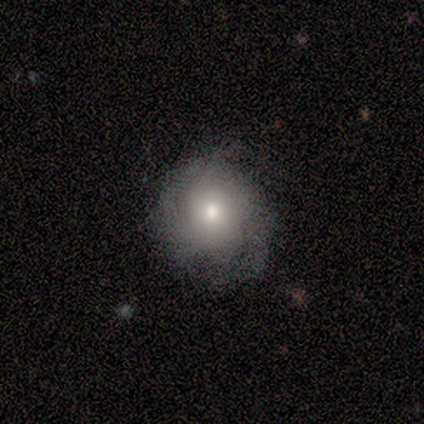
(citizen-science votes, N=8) Volunteers were most divided on "bar": no: 60%, weak: 40%, strong: 0%. More confident: edge-on disk — no (100%); spiral winding — tight (67%); spiral arm count — can't tell (67%); smooth or featured — featured or disk (62%); merging — none (62%); spiral arms — yes (60%); bulge size — moderate (60%).